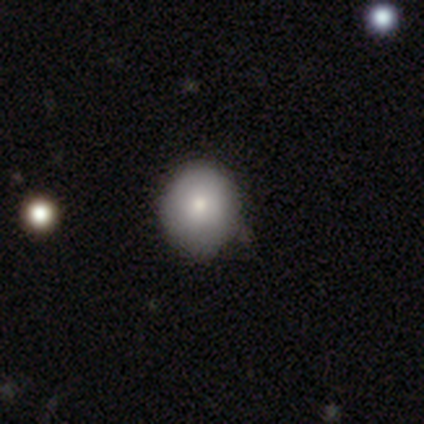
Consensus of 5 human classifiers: Smooth or featured? 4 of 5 (80%) said smooth. How rounded? 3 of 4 (75%) said round. Merging? 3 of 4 (75%) said none.